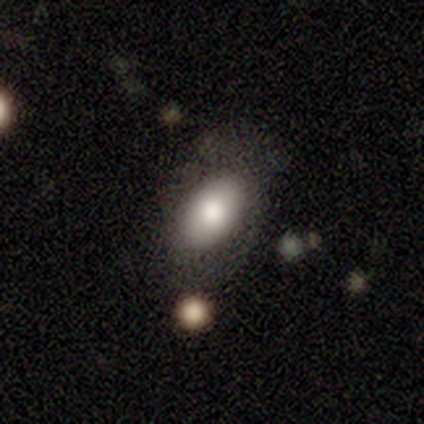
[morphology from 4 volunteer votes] Volunteers were most divided on "merging": none: 75%, merger: 25%, minor disturbance: 0%, major disturbance: 0%. More confident: smooth or featured — smooth (100%); how rounded — in between (100%).